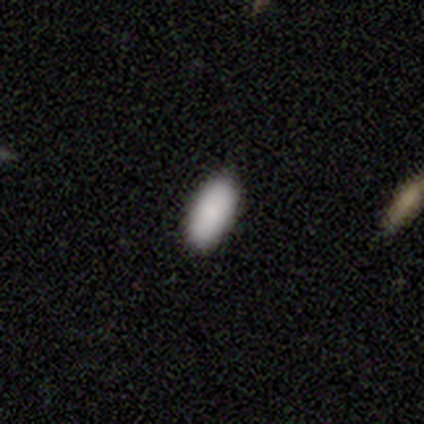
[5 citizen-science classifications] Smooth or featured? 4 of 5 (80%) said smooth. How rounded? 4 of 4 (100%) said in between. Merging? 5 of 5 (100%) said none.